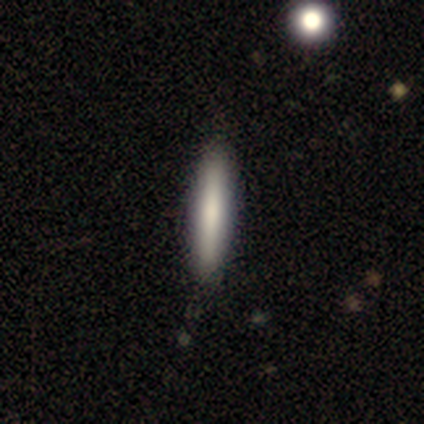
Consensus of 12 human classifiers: Volunteers were most divided on "smooth or featured": smooth: 83%, featured or disk: 17%, star or artifact: 0%. More confident: how rounded — cigar-shaped (100%); merging — none (92%).